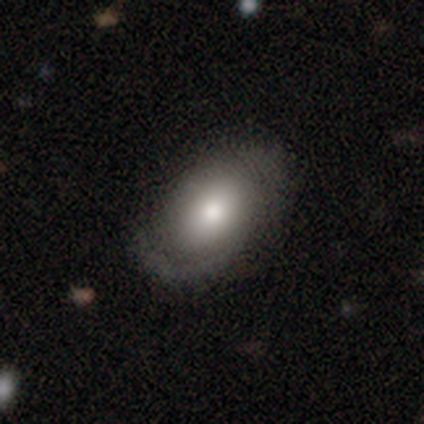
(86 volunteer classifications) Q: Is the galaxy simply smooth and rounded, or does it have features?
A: smooth — 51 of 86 (59%).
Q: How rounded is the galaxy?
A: in between — 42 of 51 (82%).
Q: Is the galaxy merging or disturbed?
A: none — 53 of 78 (68%).